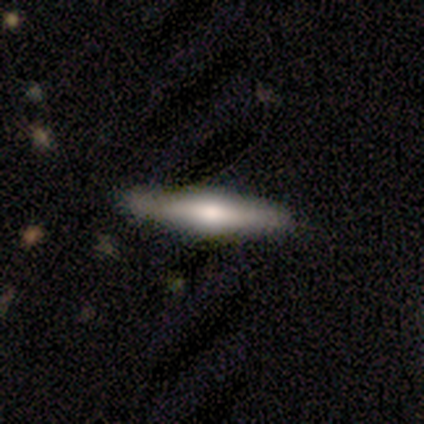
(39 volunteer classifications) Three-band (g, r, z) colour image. It shows a featured or disk galaxy (62%) viewed edge-on (100%) with a rounded central bulge (83%). Merging: none (80%).